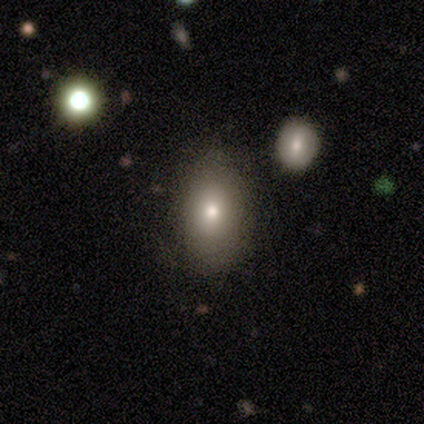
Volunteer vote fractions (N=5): This appears to be a smooth galaxy with no disk features (100%) that is in between round and cigar-shaped (80%). Merging: none (100%).